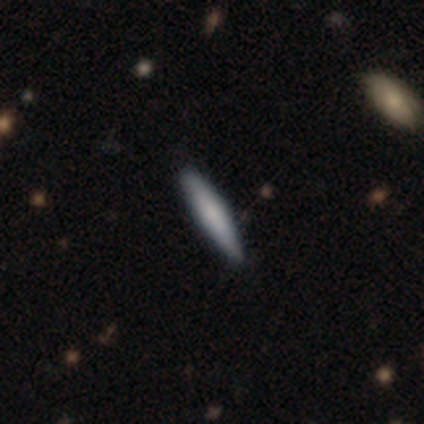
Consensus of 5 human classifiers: Volunteers were most divided on "merging": none: 60%, minor disturbance: 40%, major disturbance: 0%, merger: 0%. More confident: how rounded — cigar-shaped (100%); smooth or featured — smooth (80%).